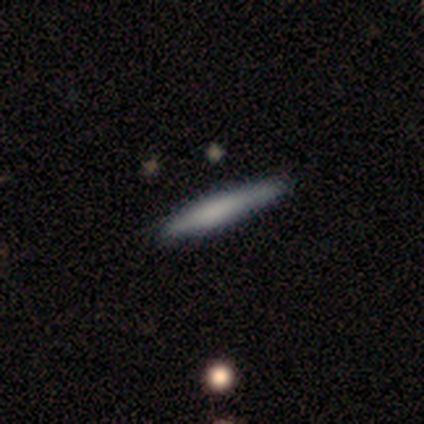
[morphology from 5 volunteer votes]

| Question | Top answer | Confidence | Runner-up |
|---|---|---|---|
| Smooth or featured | smooth | 80% | featured or disk (20%) |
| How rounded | cigar-shaped | 100% | — |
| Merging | none | 80% | minor disturbance (20%) |